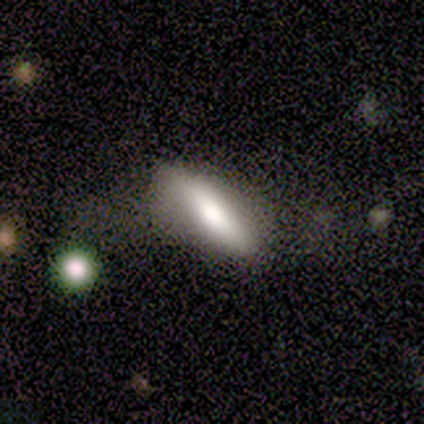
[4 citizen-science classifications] This appears to be a smooth galaxy with no disk features (75%) that is in between round and cigar-shaped (67%). Merging: minor disturbance (50%).